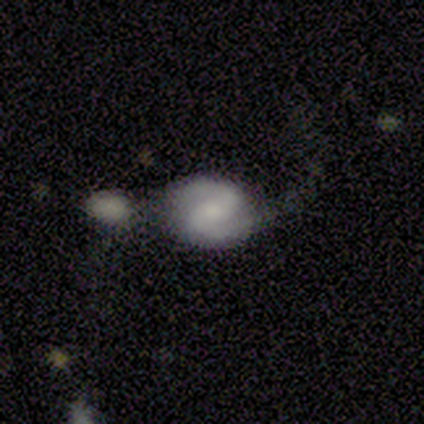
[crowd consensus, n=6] Morphology: type=featured or disk (100%); edge-on=no (100%); bar=strong (33%, tied with weak and no); spiral arms=yes (100%); winding=loose (67%); arm count=2 (100%); bulge=moderate (50%); merging=none (50%).